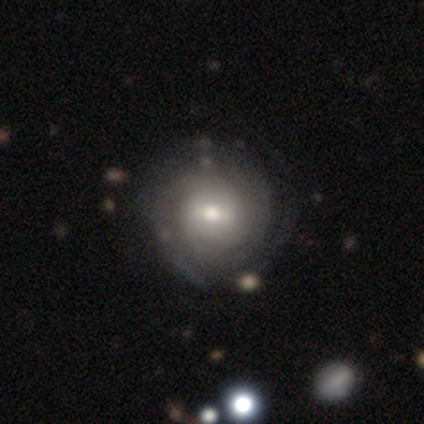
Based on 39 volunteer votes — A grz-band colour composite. It shows a featured or disk galaxy (64%) with a weak bar (68%), tight (73%) spiral arms (88%) and a moderate central bulge (80%). Merging: none (56%).